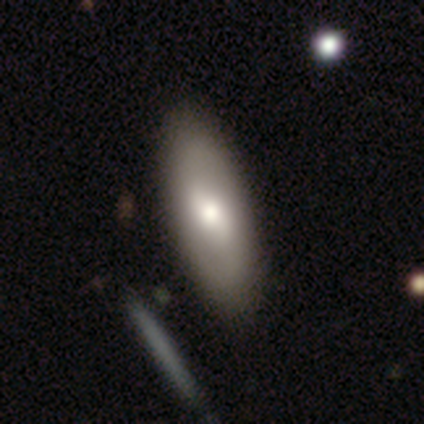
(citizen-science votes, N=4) smooth-or-featured: smooth: 50% (tied) | featured or disk: 50% (tied) | star or artifact: 0%
  how-rounded: in between: 100% | round: 0% | cigar-shaped: 0%
  merging: none: 75% | minor disturbance: 25% | major disturbance: 0% | merger: 0%